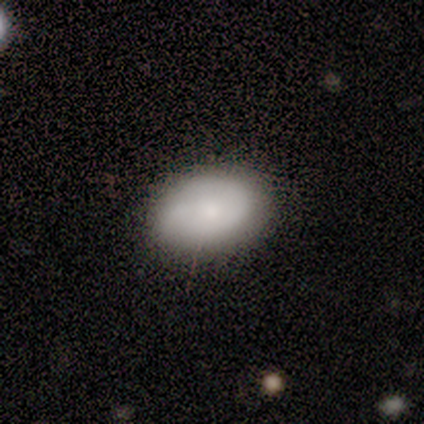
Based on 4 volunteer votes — Smooth or featured? smooth (75%)
How rounded? in between (67%)
Merging? none (75%)